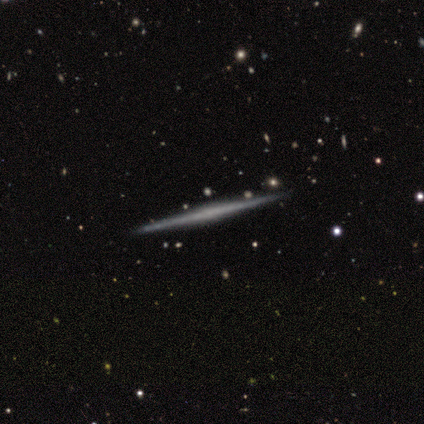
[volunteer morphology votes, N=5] smooth_or_featured: smooth (p=0.60) [alt: featured or disk p=0.40]
how_rounded: cigar-shaped (p=1.00)
merging: none (p=1.00)